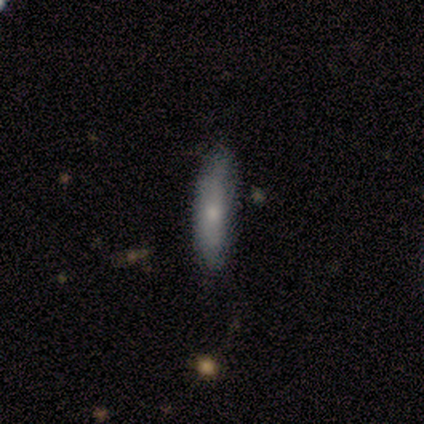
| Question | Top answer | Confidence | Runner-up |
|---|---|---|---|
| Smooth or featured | smooth | 75% | featured or disk (25%) |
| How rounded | in between | 67% | cigar-shaped (33%) |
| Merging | none | 75% | minor disturbance (25%) |